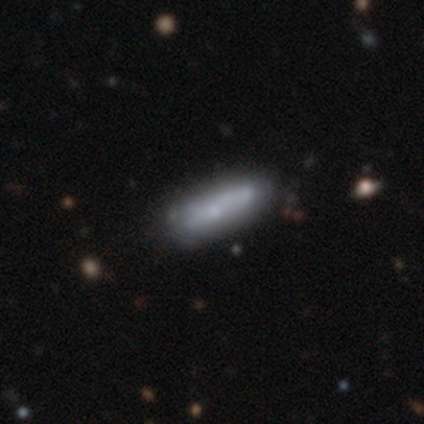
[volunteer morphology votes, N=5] type=smooth (80%); roundness=in between (50%, tied with cigar-shaped); merging=none (80%).